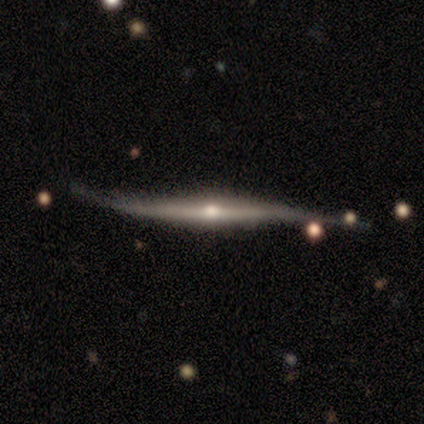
Overall: featured or disk (100%). Edge-on disk: yes (100%). Edge-on bulge: rounded (100%). Merging: none (50%; minor disturbance 33%).